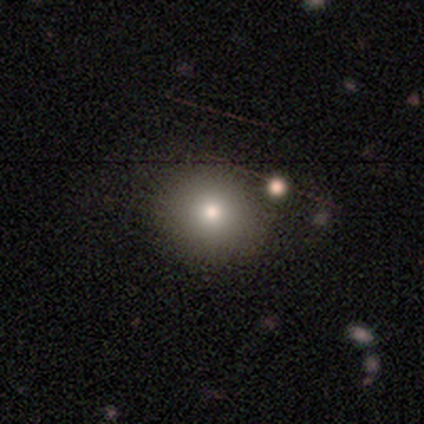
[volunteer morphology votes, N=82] Q: Smooth or featured?
A: smooth (79%); runner-up: featured or disk (11%)
Q: How rounded?
A: round (85%); runner-up: in between (15%)
Q: Merging?
A: none (84%); runner-up: minor disturbance (7%)